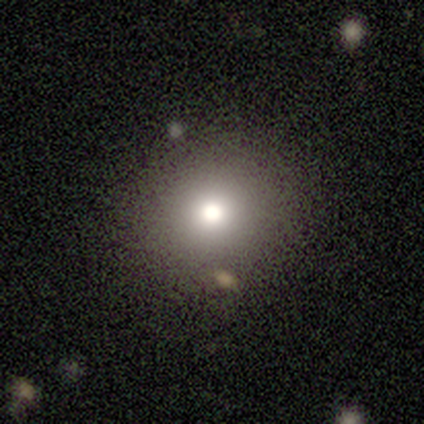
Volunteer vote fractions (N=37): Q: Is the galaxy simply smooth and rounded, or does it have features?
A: smooth — 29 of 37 (78%).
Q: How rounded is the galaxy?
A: round — 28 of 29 (97%).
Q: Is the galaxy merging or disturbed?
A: none — 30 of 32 (94%).